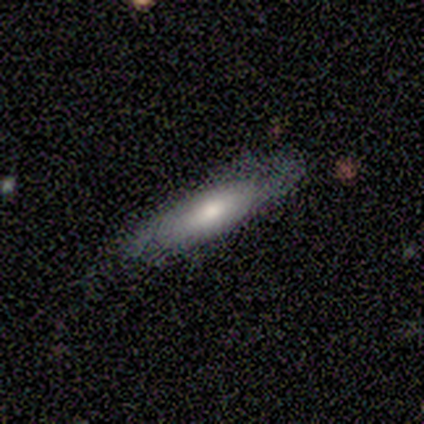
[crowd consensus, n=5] Overall: smooth (60%; featured or disk 40%). How rounded: in between (67%; cigar-shaped 33%). Merging: none (60%; minor disturbance 40%).